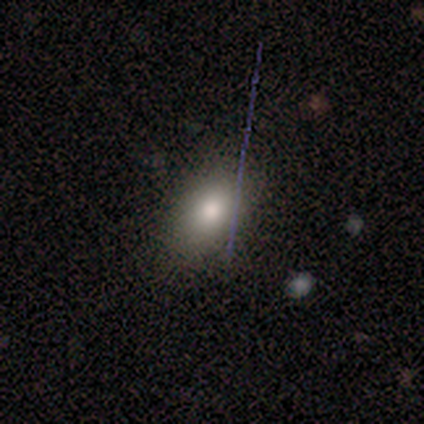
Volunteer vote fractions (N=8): Q: Smooth or featured?
A: smooth (100%)
Q: How rounded?
A: in between (88%); runner-up: round (12%)
Q: Merging?
A: none (100%)